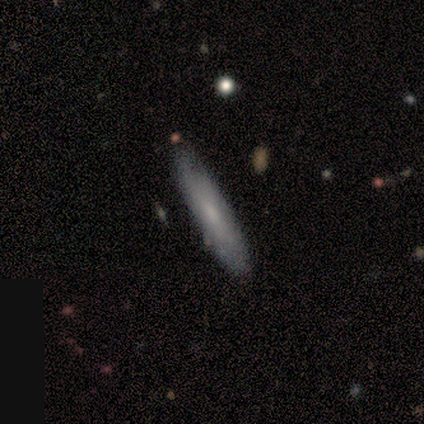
Smooth or featured?
  - smooth: 80% *
  - featured or disk: 20%
  - star or artifact: 0%
How rounded?
  - cigar-shaped: 75% *
  - in between: 25%
  - round: 0%
Merging?
  - none: 100% *
  - minor disturbance: 0%
  - major disturbance: 0%
  - merger: 0%